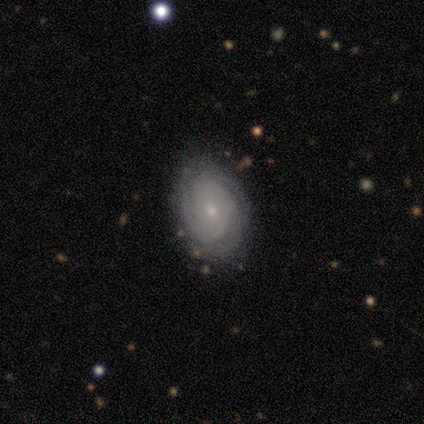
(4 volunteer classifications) smooth_or_featured: featured or disk (p=1.00)
disk_edge_on: no (p=1.00)
bar: no (p=0.75) [alt: weak p=0.25]
has_spiral_arms: yes (p=1.00)
spiral_winding: tight (p=0.50) [alt: medium p=0.25]
spiral_arm_count: can't tell (p=0.50) [alt: 2 p=0.25]
bulge_size: small (p=0.75) [alt: moderate p=0.25]
merging: none (p=0.75) [alt: minor disturbance p=0.25]